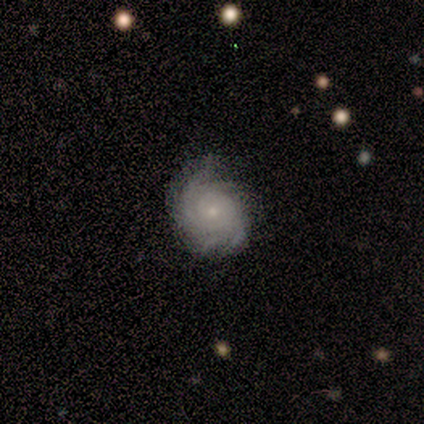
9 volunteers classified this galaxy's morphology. type=featured or disk (100%); edge-on=no (100%); bar=no (56%); spiral arms=yes (89%); winding=tight (62%); arm count=3 (25%, tied with 4 and can't tell); bulge=small (67%); merging=none (89%).